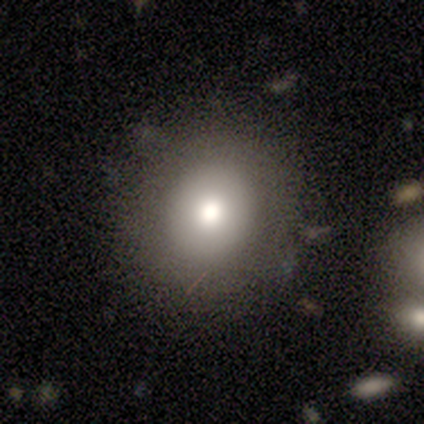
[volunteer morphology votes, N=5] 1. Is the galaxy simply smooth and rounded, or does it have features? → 100% smooth, 0% featured or disk, 0% star or artifact.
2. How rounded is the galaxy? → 60% round, 40% in between, 0% cigar-shaped.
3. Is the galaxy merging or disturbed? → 80% none, 20% minor disturbance, 0% major disturbance, 0% merger.